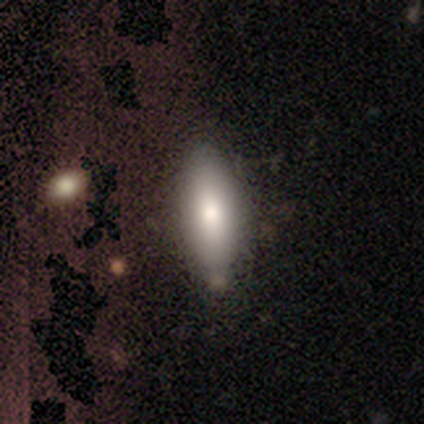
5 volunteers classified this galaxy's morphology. smooth_or_featured: smooth (p=0.40) [tied with: featured or disk p=0.40]
how_rounded: in between (p=0.50) [tied with: cigar-shaped p=0.50]
merging: none (p=1.00)